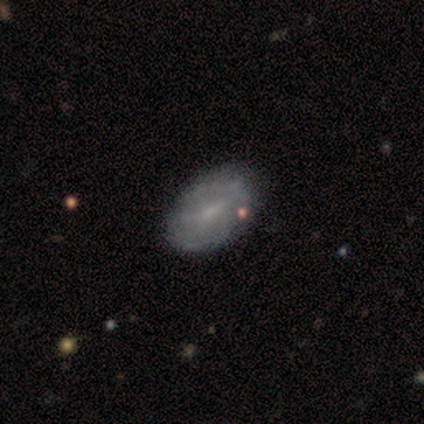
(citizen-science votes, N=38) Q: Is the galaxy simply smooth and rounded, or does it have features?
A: featured or disk — 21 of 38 (55%).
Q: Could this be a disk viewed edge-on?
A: no — 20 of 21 (95%).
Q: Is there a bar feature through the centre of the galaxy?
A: weak — 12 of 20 (60%).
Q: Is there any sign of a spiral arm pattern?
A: yes — 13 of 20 (65%).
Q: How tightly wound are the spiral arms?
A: medium — 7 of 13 (54%).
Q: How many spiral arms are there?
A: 2 — 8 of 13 (62%).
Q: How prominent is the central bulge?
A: small — 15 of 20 (75%).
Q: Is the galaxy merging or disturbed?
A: none — 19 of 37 (51%).